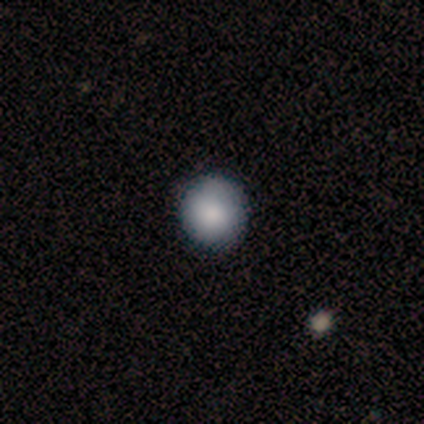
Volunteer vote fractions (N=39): Smooth or featured? 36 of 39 (92%) said smooth. How rounded? 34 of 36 (94%) said round. Merging? 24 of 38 (63%) said none.